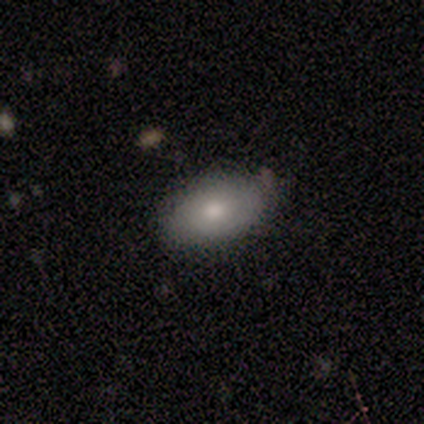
Smooth or featured?
  - smooth: 75% *
  - featured or disk: 25%
  - star or artifact: 0%
How rounded?
  - in between: 100% *
  - round: 0%
  - cigar-shaped: 0%
Merging?
  - none: 75% *
  - minor disturbance: 25%
  - major disturbance: 0%
  - merger: 0%